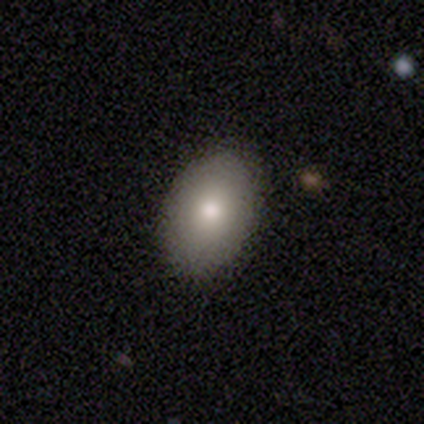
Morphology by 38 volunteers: smooth 79%, featured or disk 13%, star or artifact 8%. Down the decision tree: how rounded — in between (87%); merging — none (91%).